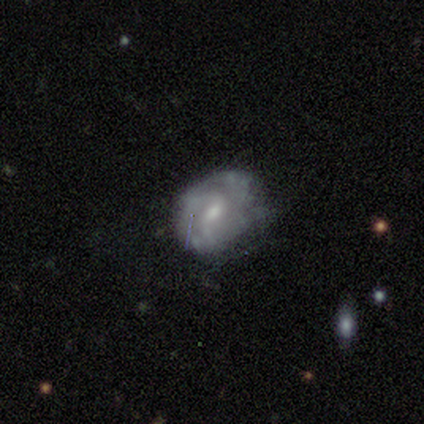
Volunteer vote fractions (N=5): Smooth or featured? 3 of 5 (60%) said featured or disk. Edge-on disk? 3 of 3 (100%) said no. Bar? 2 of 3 (67%) said weak. Spiral arms? 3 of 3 (100%) said yes. Spiral winding? 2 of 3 (67%) said medium. Spiral arm count? 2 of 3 (67%) said 2. Bulge size? 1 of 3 (33%, tied with moderate and small) said large. Merging? 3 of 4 (75%) said minor disturbance.